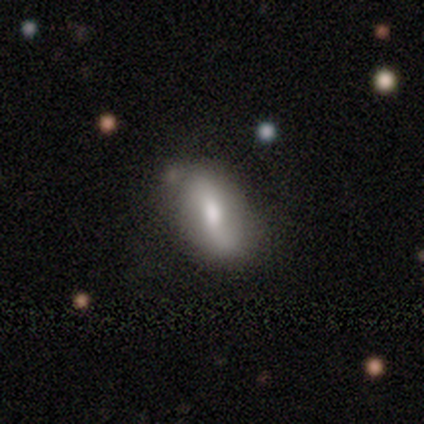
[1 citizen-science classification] Q: Smooth or featured?
A: featured or disk (100%)
Q: Edge-on disk?
A: no (100%)
Q: Bar?
A: weak (100%)
Q: Spiral arms?
A: no (100%)
Q: Bulge size?
A: small (100%)
Q: Merging?
A: none (100%)